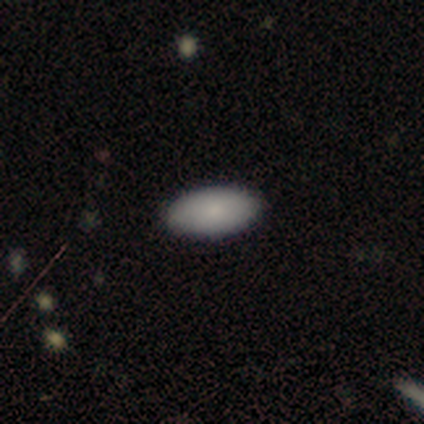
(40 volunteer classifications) A smooth galaxy with no disk features (85%) that is in between round and cigar-shaped (97%). Merging: none (97%).